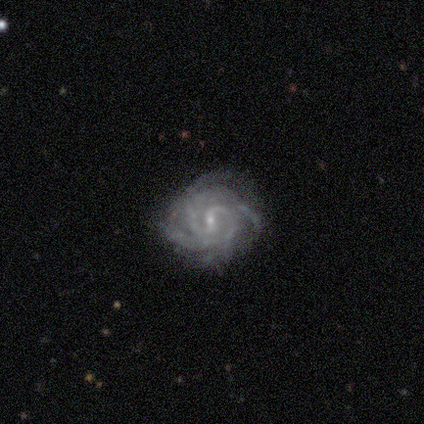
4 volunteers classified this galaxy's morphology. A featured or disk galaxy (100%) with a weak bar (50%, tied with no), 4 (50%) tight (50%) spiral arms (100%) and a moderate central bulge (50%, tied with small).

Vote fractions:
- Smooth or featured? featured or disk: 100% / smooth: 0% / star or artifact: 0%
- Edge-on disk? no: 100% / yes: 0%
- Bar? weak: 50% (tied) / no: 50% (tied) / strong: 0%
- Spiral arms? yes: 100% / no: 0%
- Spiral winding? tight: 50% / medium: 25% / loose: 25%
- Spiral arm count? 4: 50% / 2: 25% / 3: 25% / 1: 0% / more than 4: 0% / can't tell: 0%
- Bulge size? moderate: 50% (tied) / small: 50% (tied) / dominant: 0% / large: 0% / none: 0%
- Merging? none: 75% / minor disturbance: 25% / major disturbance: 0% / merger: 0%